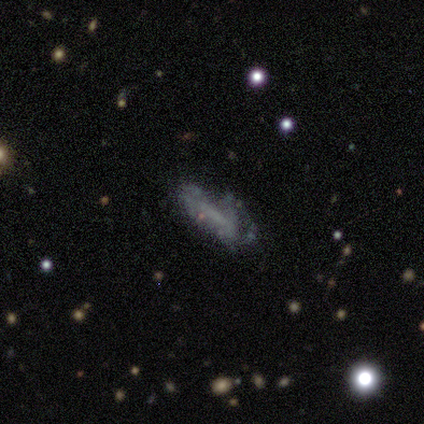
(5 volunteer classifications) Smooth or featured?
  - featured or disk: 60% *
  - smooth: 20%
  - star or artifact: 20%
Edge-on disk?
  - no: 67% *
  - yes: 33%
Bar?
  - strong: 50% * (tied)
  - weak: 50% * (tied)
  - no: 0%
Spiral arms?
  - yes: 100% *
  - no: 0%
Spiral winding?
  - tight: 100% *
  - medium: 0%
  - loose: 0%
Spiral arm count?
  - 1: 50% * (tied)
  - 2: 50% * (tied)
  - 3: 0%
  - 4: 0%
  - more than 4: 0%
  - can't tell: 0%
Bulge size?
  - large: 50% * (tied)
  - small: 50% * (tied)
  - dominant: 0%
  - moderate: 0%
  - none: 0%
Merging?
  - minor disturbance: 75% *
  - none: 25%
  - major disturbance: 0%
  - merger: 0%